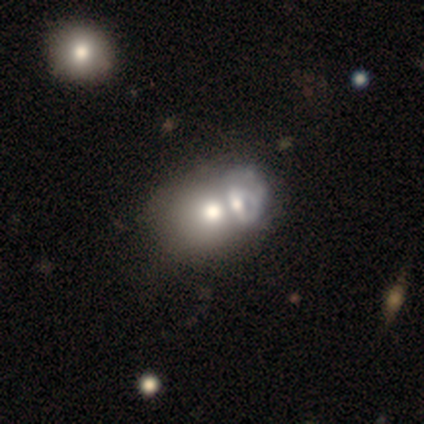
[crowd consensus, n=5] Smooth or featured: smooth — 60% (featured or disk — 40%)
How rounded: round — 100%
Merging: merger — 100%